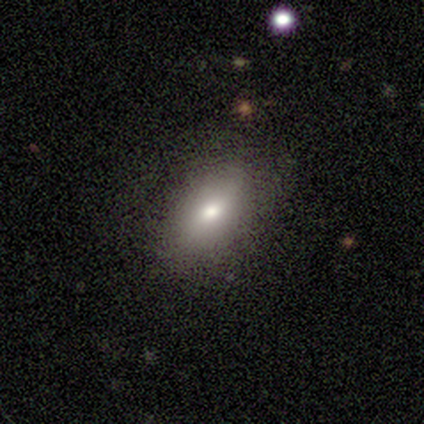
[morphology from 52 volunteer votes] This appears to be a smooth galaxy with no disk features (83%) that is in between round and cigar-shaped (86%). Merging: none (82%).